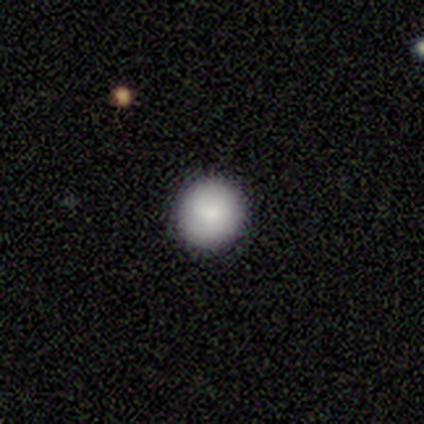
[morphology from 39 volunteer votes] Overall: smooth (87%). How rounded: round (91%). Merging: none (92%).